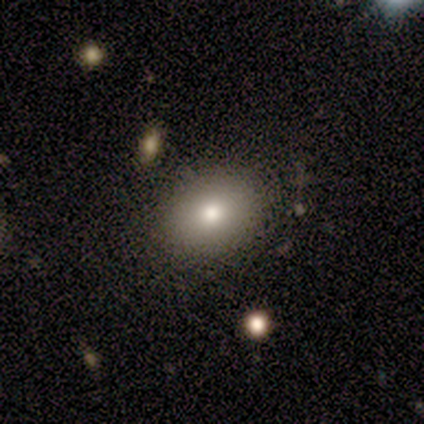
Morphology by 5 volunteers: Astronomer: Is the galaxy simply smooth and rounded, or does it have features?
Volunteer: smooth — 80%.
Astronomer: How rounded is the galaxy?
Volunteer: round — 50%, tied with in between at 50%.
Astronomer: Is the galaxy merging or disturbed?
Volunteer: none — 75%.